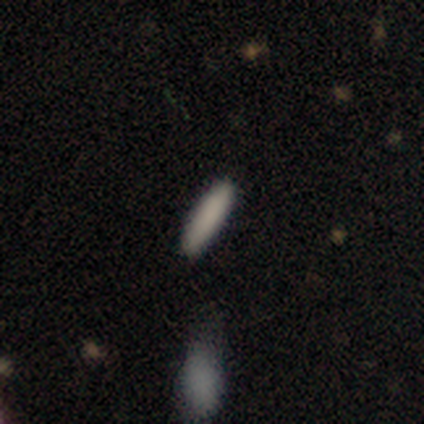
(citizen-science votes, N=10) Morphology: type=smooth (90%); roundness=cigar-shaped (89%); merging=none (89%).